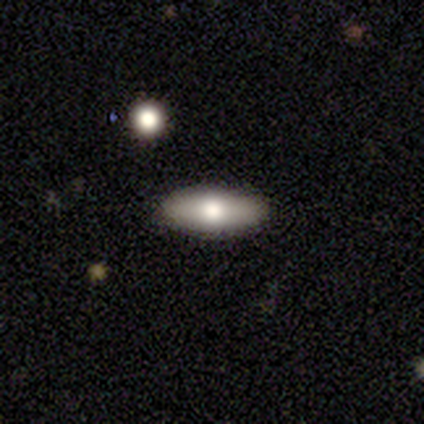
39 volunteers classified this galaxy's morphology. This is likely a smooth galaxy (69%). How rounded: possibly in between (59%). Merging: clearly none (95%).